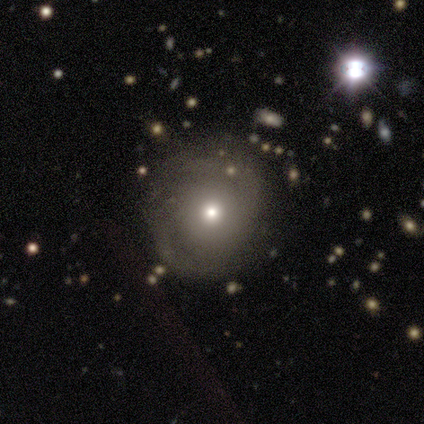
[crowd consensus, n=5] Smooth or featured?
  - smooth: 60% *
  - featured or disk: 40%
  - star or artifact: 0%
How rounded?
  - round: 100% *
  - in between: 0%
  - cigar-shaped: 0%
Merging?
  - none: 80% *
  - minor disturbance: 20%
  - major disturbance: 0%
  - merger: 0%